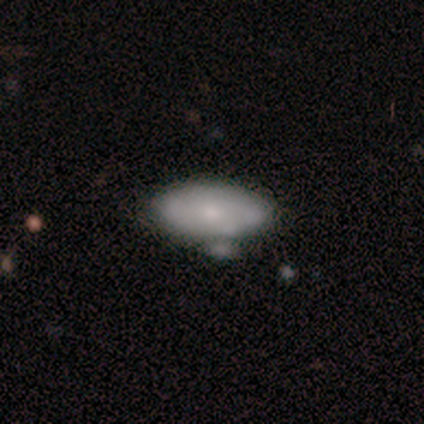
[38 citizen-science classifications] Smooth or featured: smooth — 68% (featured or disk — 29%)
How rounded: in between — 88% (round — 12%)
Merging: none — 59% (minor disturbance — 22%)